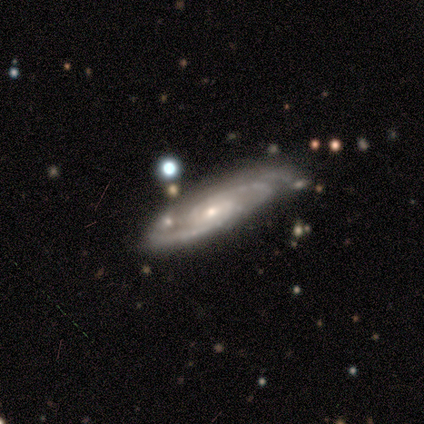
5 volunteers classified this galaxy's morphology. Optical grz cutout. It shows a featured or disk galaxy (80%) with no bar (75%), tight (75%) spiral arms (100%) and a small central bulge (75%). Merging: none (100%).